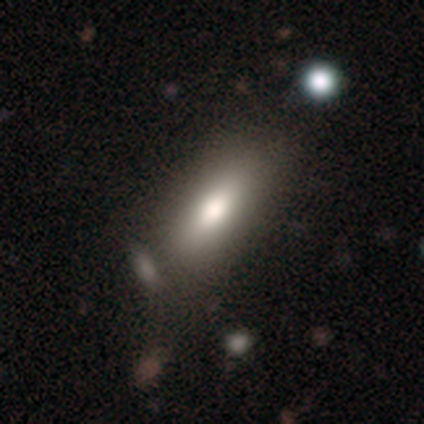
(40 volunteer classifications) This appears to be a smooth galaxy with no disk features (68%) that is in between round and cigar-shaped (74%). Merging: none (81%).